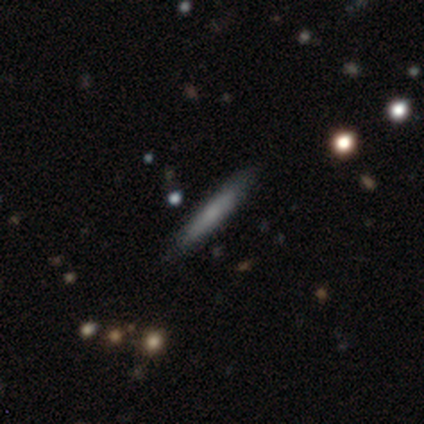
Smooth or featured? 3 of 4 (75%) said smooth. How rounded? 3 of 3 (100%) said cigar-shaped. Merging? 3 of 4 (75%) said none.